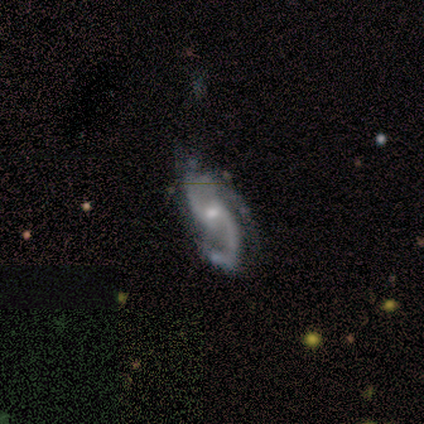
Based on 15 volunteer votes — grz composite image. It shows a featured or disk galaxy (100%) with a weak bar (53%), 2 (60%) medium (47%, tied with loose) spiral arms (100%) and a small central bulge (60%). Merging: none (53%).